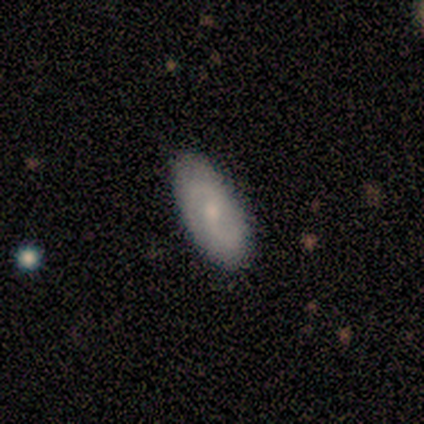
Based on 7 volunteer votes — featured or disk 86%, star or artifact 14%, smooth 0%. Down the decision tree: edge-on disk — no (100%); bar — weak (83%); spiral arms — yes (100%); spiral arm count — 2 (100%); spiral winding — medium (83%); bulge size — moderate (67%); merging — none (100%).